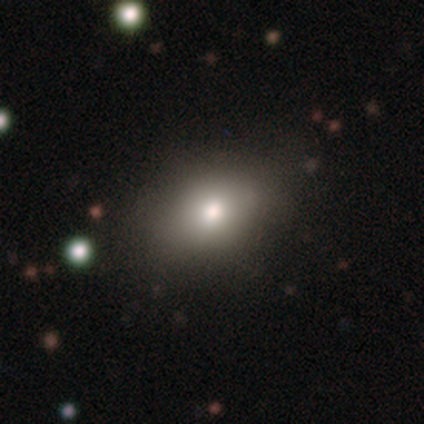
Smooth or featured? 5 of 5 (100%) said smooth. How rounded? 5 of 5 (100%) said in between. Merging? 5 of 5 (100%) said none.